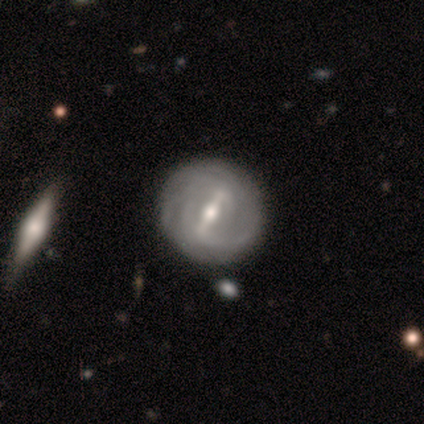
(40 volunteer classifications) smooth_or_featured: featured or disk (p=0.95) [alt: smooth p=0.05]
disk_edge_on: no (p=0.97) [alt: yes p=0.03]
bar: strong (p=0.89) [alt: weak p=0.05]
has_spiral_arms: yes (p=0.89) [alt: no p=0.11]
spiral_winding: tight (p=0.61) [alt: medium p=0.30]
spiral_arm_count: can't tell (p=0.52) [alt: 2 p=0.24]
bulge_size: moderate (p=0.51) [alt: small p=0.38]
merging: none (p=0.50) [alt: merger p=0.10]